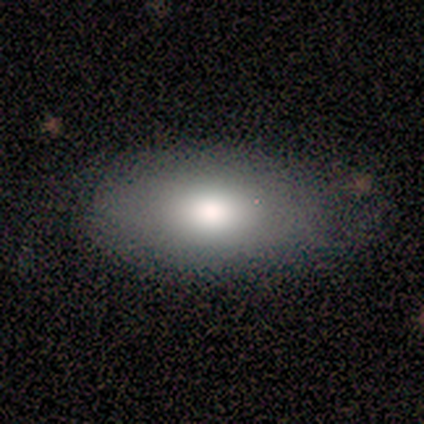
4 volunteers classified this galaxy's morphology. Q: Smooth or featured?
A: smooth (100%)
Q: How rounded?
A: in between (100%)
Q: Merging?
A: none (75%); runner-up: minor disturbance (25%)